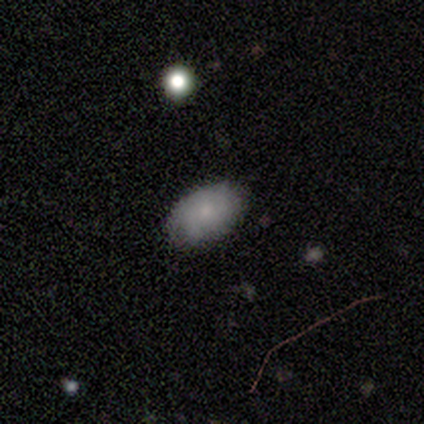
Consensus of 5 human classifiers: smooth_or_featured: smooth (p=0.40) [tied with: featured or disk p=0.40]
how_rounded: in between (p=1.00)
merging: none (p=0.75) [alt: minor disturbance p=0.25]